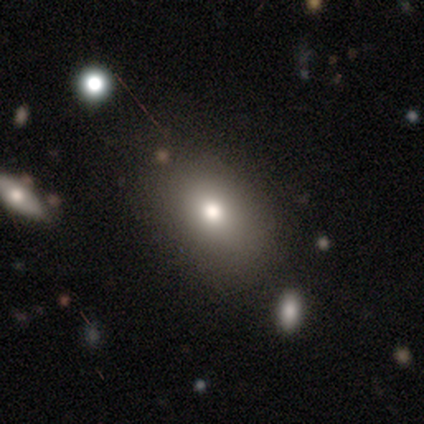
This appears to be a smooth galaxy with no disk features (78%) that is in between round and cigar-shaped (67%). Merging: none (81%).